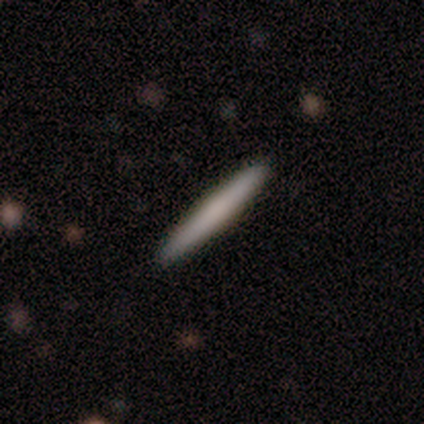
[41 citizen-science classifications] smooth 71%, featured or disk 24%, star or artifact 5%. Down the decision tree: how rounded — cigar-shaped (100%); merging — none (95%).